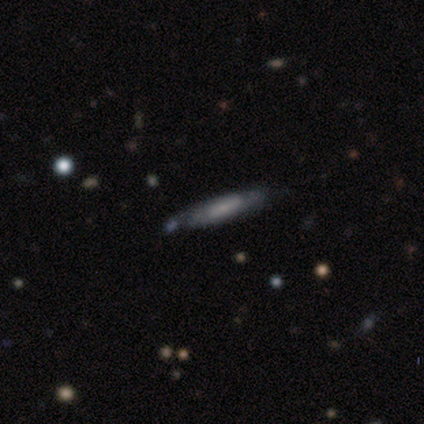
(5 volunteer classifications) Smooth or featured?
  - featured or disk: 100% *
  - smooth: 0%
  - star or artifact: 0%
Edge-on disk?
  - no: 80% *
  - yes: 20%
Bar?
  - weak: 50% * (tied)
  - no: 50% * (tied)
  - strong: 0%
Spiral arms?
  - yes: 100% *
  - no: 0%
Spiral winding?
  - medium: 50% *
  - tight: 25%
  - loose: 25%
Spiral arm count?
  - can't tell: 100% *
  - 1: 0%
  - 2: 0%
  - 3: 0%
  - 4: 0%
  - more than 4: 0%
Bulge size?
  - moderate: 50% * (tied)
  - small: 50% * (tied)
  - dominant: 0%
  - large: 0%
  - none: 0%
Merging?
  - none: 80% *
  - minor disturbance: 20%
  - major disturbance: 0%
  - merger: 0%